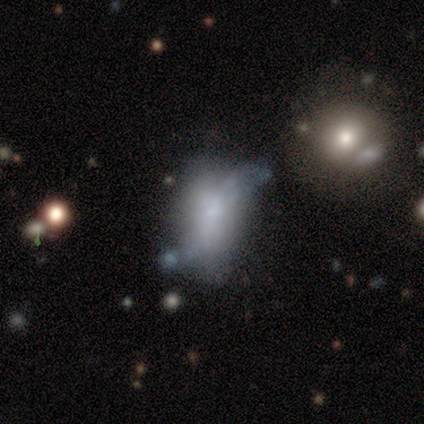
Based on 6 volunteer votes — Overall: smooth (83%). How rounded: in between (80%). Merging: minor disturbance (67%; none 33%).